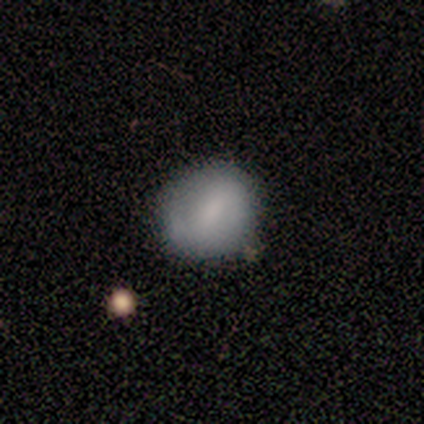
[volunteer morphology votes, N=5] Smooth or featured? 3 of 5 (60%) said smooth. How rounded? 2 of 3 (67%) said round. Merging? 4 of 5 (80%) said none.